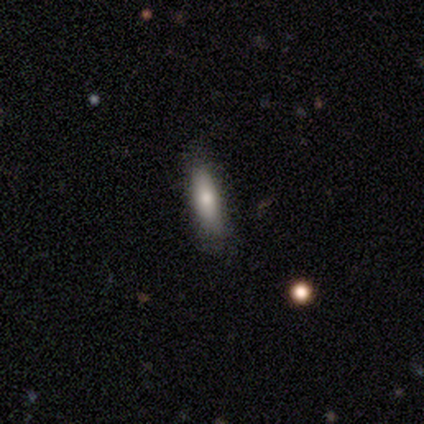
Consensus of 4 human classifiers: Smooth or featured: smooth — 100%
How rounded: cigar-shaped — 75% (in between — 25%)
Merging: none — 75% (minor disturbance — 25%)